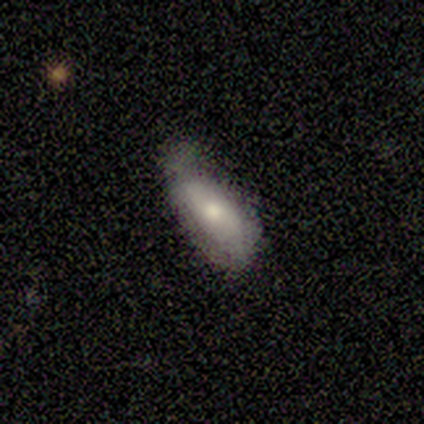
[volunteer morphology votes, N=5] smooth-or-featured: smooth: 60% | featured or disk: 20% | star or artifact: 20%
  how-rounded: cigar-shaped: 67% | in between: 33% | round: 0%
  merging: minor disturbance: 75% | merger: 25% | none: 0% | major disturbance: 0%